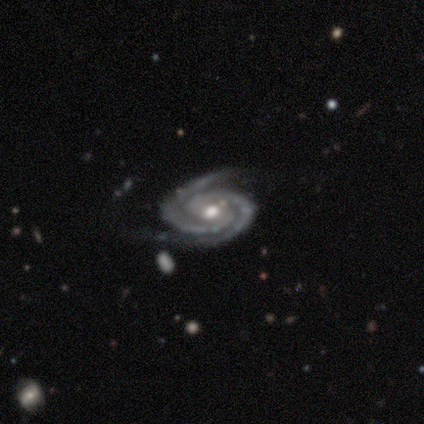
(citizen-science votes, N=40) A featured or disk galaxy (95%) with a weak bar (41%, tied with no), 2 (86%) tight (84%) spiral arms (100%) and a moderate central bulge (84%).

Vote fractions:
- Smooth or featured? featured or disk: 95% / star or artifact: 5% / smooth: 0%
- Edge-on disk? no: 97% / yes: 3%
- Bar? weak: 41% (tied) / no: 41% (tied) / strong: 19%
- Spiral arms? yes: 100% / no: 0%
- Spiral winding? tight: 84% / medium: 16% / loose: 0%
- Spiral arm count? 2: 86% / 3: 5% / can't tell: 5% / 4: 3% / 1: 0% / more than 4: 0%
- Bulge size? moderate: 84% / small: 8% / large: 5% / dominant: 3% / none: 0%
- Merging? none: 68% / minor disturbance: 21% / major disturbance: 11% / merger: 0%